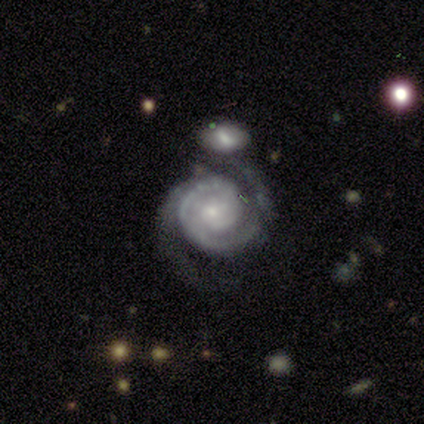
Overall: featured or disk (100%). Edge-on disk: no (100%). Bar: no (100%). Spiral arms: yes (100%). Spiral arm count: 2 (80%). Spiral winding: tight (40%, tied with medium). Bulge size: small (100%). Merging: none (60%; minor disturbance 20%).